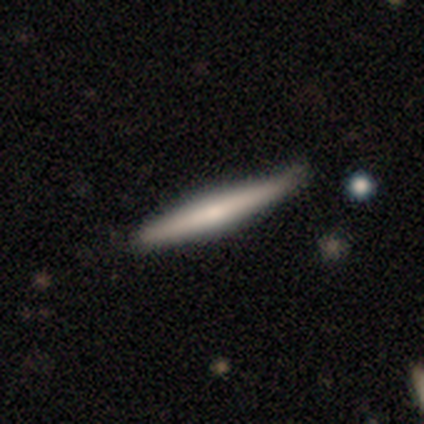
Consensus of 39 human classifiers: This appears to be a smooth galaxy with no disk features (56%) that is cigar-shaped (95%). Merging: none (74%).